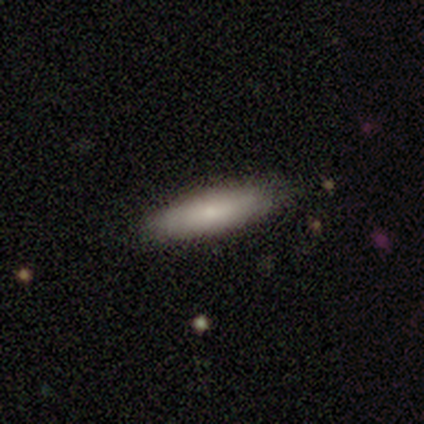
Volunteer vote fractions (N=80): smooth_or_featured: smooth (p=0.76) [alt: featured or disk p=0.21]
how_rounded: cigar-shaped (p=0.66) [alt: in between p=0.34]
merging: none (p=0.45) [alt: minor disturbance p=0.04]